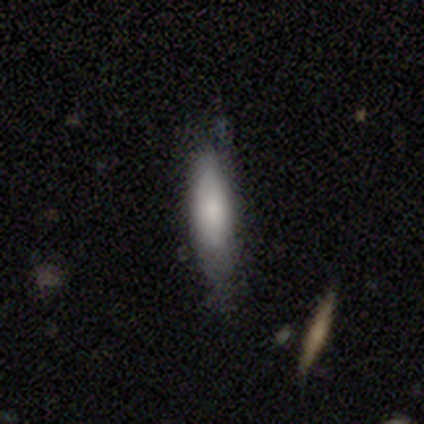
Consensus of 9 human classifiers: Smooth or featured? smooth (89%)
How rounded? in between (50%, tied with cigar-shaped)
Merging? none (67%)